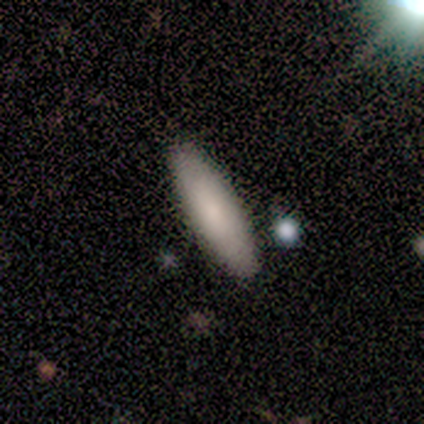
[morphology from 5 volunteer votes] type=smooth (80%); roundness=in between (100%); merging=none (80%).